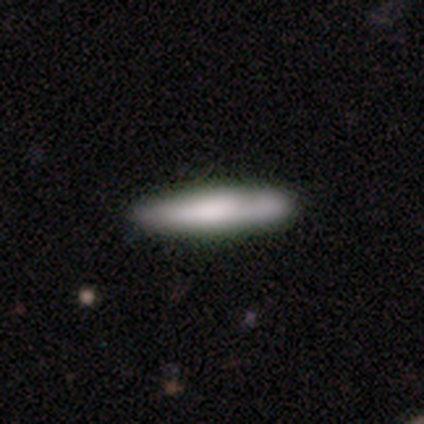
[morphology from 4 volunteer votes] smooth-or-featured: smooth: 75% | featured or disk: 25% | star or artifact: 0%
  how-rounded: cigar-shaped: 100% | round: 0% | in between: 0%
  merging: none: 100% | minor disturbance: 0% | major disturbance: 0% | merger: 0%